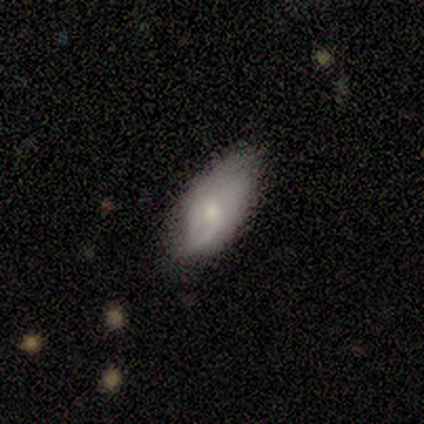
Smooth or featured? 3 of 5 (60%) said smooth. How rounded? 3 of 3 (100%) said in between. Merging? 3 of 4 (75%) said none.